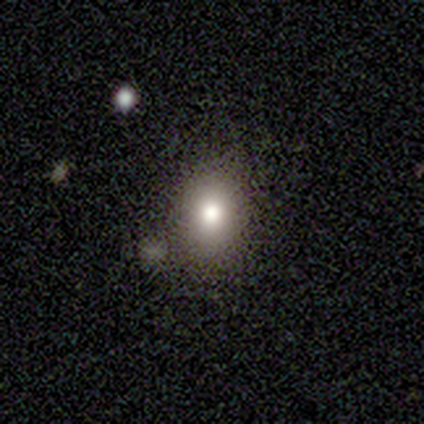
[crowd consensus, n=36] Smooth or featured? smooth (64%)
How rounded? in between (65%)
Merging? none (78%)